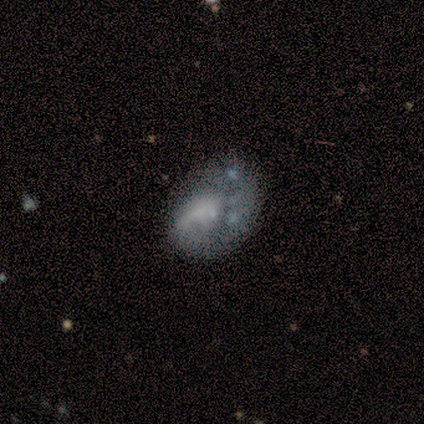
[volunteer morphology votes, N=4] featured or disk 75%, smooth 25%, star or artifact 0%. Down the decision tree: edge-on disk — no (100%); bar — no (100%); spiral arms — no (67%); bulge size — moderate (33%, tied with small and none); merging — none (50%).